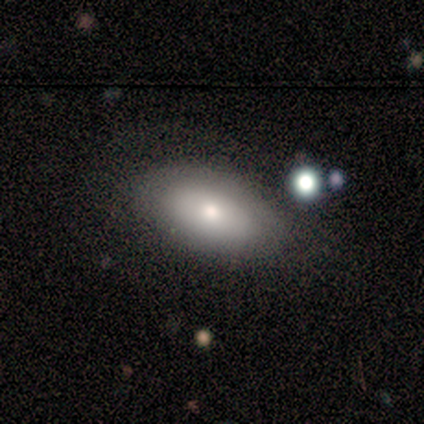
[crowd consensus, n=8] This is clearly a smooth galaxy (88%). How rounded: clearly in between (100%). Merging: possibly none (50%).